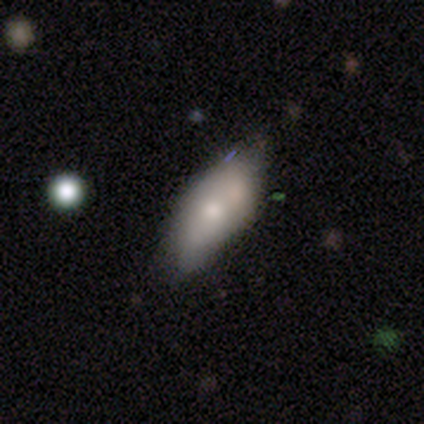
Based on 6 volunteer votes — A smooth galaxy with no disk features (83%) that is in between round and cigar-shaped (100%).

Vote fractions:
- Smooth or featured? smooth: 83% / featured or disk: 17% / star or artifact: 0%
- How rounded? in between: 100% / round: 0% / cigar-shaped: 0%
- Merging? minor disturbance: 67% / none: 33% / major disturbance: 0% / merger: 0%